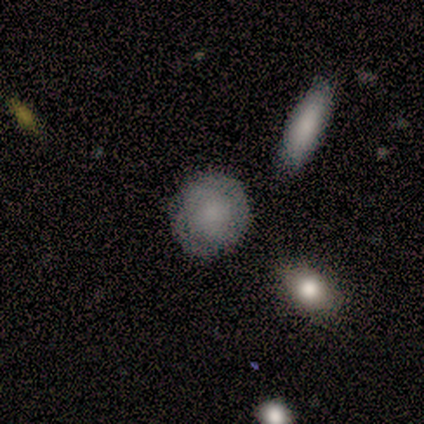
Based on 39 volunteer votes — Smooth or featured: smooth — 67% (featured or disk — 28%)
How rounded: round — 92% (in between — 8%)
Merging: none — 81% (minor disturbance — 14%)